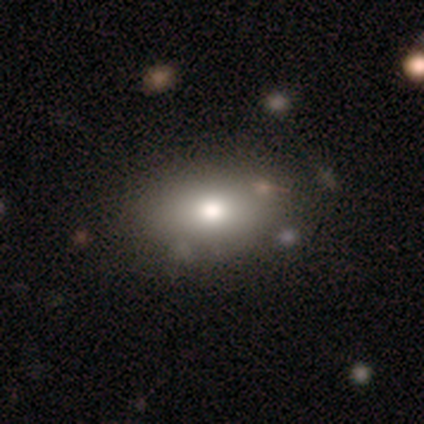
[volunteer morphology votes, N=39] This appears to be a smooth galaxy with no disk features (77%) that is in between round and cigar-shaped (90%). Merging: none (62%).